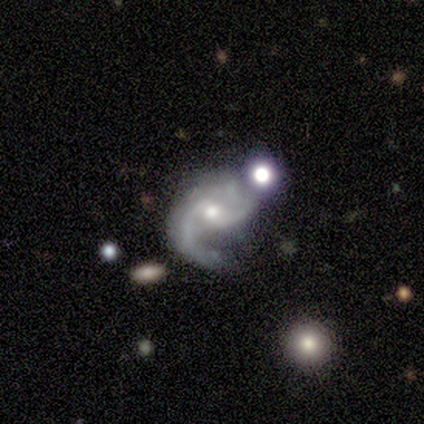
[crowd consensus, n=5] A featured or disk galaxy (100%) with no bar (60%), 2 (80%) medium (40%, tied with loose) spiral arms (100%) and a small central bulge (60%). Merging: none (40%, tied with merger).